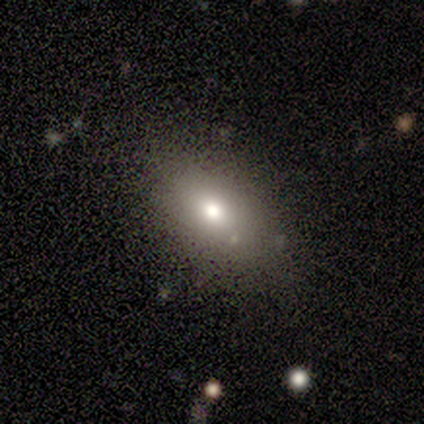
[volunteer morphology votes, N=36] Q: Smooth or featured?
A: smooth (78%); runner-up: featured or disk (11%)
Q: How rounded?
A: in between (75%); runner-up: round (21%)
Q: Merging?
A: none (69%); runner-up: minor disturbance (19%)